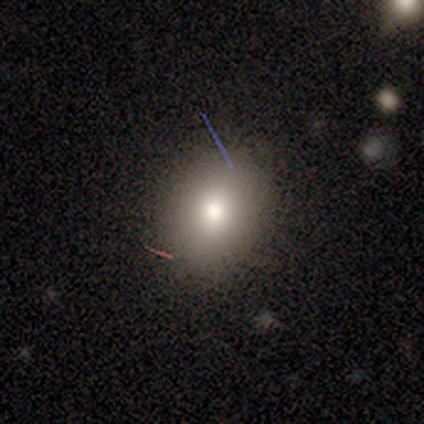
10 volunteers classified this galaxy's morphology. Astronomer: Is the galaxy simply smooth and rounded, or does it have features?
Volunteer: smooth — 100%.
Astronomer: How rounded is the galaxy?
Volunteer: in between — 60% (runner-up: round, 40%).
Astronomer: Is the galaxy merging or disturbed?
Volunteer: none — 80%.